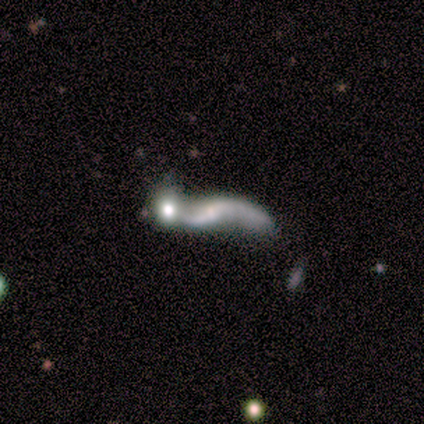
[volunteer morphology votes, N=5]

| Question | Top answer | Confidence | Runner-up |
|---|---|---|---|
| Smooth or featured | featured or disk | 80% | smooth (20%) |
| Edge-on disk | no | 100% | — |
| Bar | no | 75% | weak (25%) |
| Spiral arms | yes | 75% | no (25%) |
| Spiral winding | loose | 100% | — |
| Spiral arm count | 2 | 67% | 1 (33%) |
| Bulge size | small | 50% | dominant (25%) |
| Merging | merger | 60% | none (20%) |